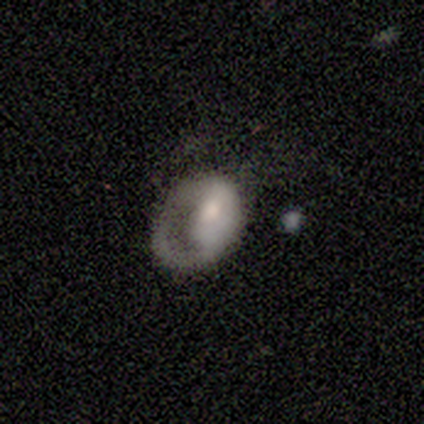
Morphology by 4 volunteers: smooth-or-featured: featured or disk: 50% | smooth: 25% | star or artifact: 25%
  disk-edge-on: no: 100% | yes: 0%
    bar: weak: 50% (tied) | no: 50% (tied) | strong: 0%
    has-spiral-arms: no: 100% | yes: 0%
    bulge-size: moderate: 50% (tied) | none: 50% (tied) | dominant: 0% | large: 0% | small: 0%
  merging: major disturbance: 67% | minor disturbance: 33% | none: 0% | merger: 0%